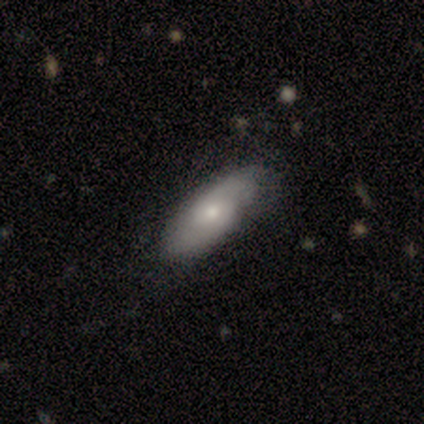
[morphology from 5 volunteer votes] Smooth or featured?
  - smooth: 80% *
  - featured or disk: 20%
  - star or artifact: 0%
How rounded?
  - in between: 75% *
  - cigar-shaped: 25%
  - round: 0%
Merging?
  - none: 100% *
  - minor disturbance: 0%
  - major disturbance: 0%
  - merger: 0%